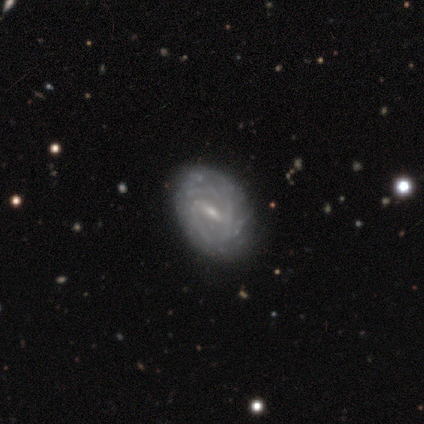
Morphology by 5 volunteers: smooth-or-featured: featured or disk: 100% | smooth: 0% | star or artifact: 0%
  disk-edge-on: no: 100% | yes: 0%
    bar: weak: 80% | strong: 20% | no: 0%
    has-spiral-arms: yes: 100% | no: 0%
      spiral-winding: tight: 80% | medium: 20% | loose: 0%
      spiral-arm-count: can't tell: 100% | 1: 0% | 2: 0% | 3: 0% | 4: 0% | more than 4: 0%
    bulge-size: small: 100% | dominant: 0% | large: 0% | moderate: 0% | none: 0%
  merging: none: 80% | minor disturbance: 20% | major disturbance: 0% | merger: 0%